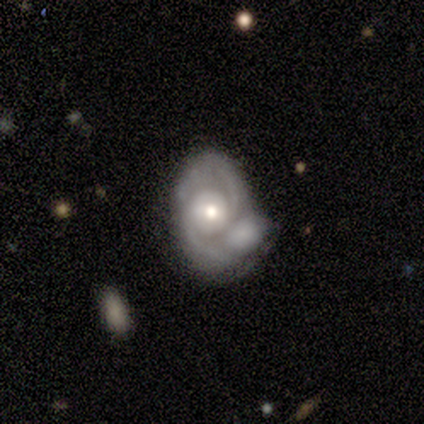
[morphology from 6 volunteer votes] This appears to be a featured or disk galaxy (83%) with a weak bar (40%, tied with no), 2 (60%) medium (60%) spiral arms (100%) and a moderate central bulge (80%). Merging: minor disturbance (40%, tied with merger).